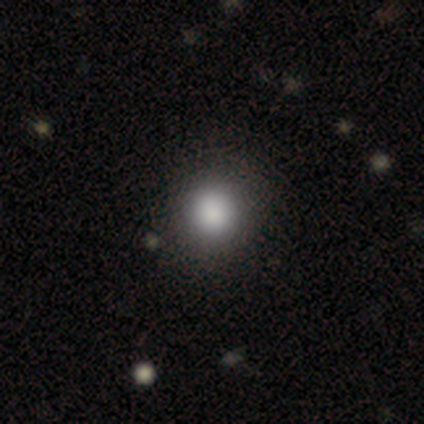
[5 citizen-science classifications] smooth-or-featured: smooth: 100% | featured or disk: 0% | star or artifact: 0%
  how-rounded: round: 80% | in between: 20% | cigar-shaped: 0%
  merging: none: 80% | minor disturbance: 20% | major disturbance: 0% | merger: 0%